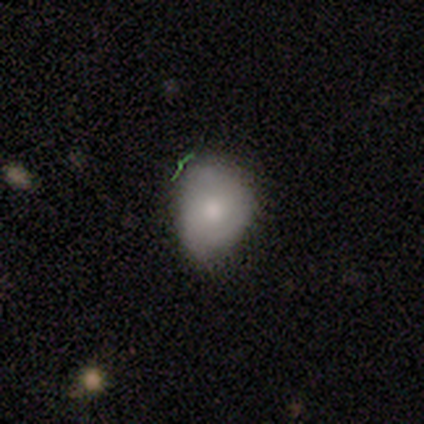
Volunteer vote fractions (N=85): Volunteers were most divided on "merging": none: 49%, minor disturbance: 43%, major disturbance: 5%, merger: 3%. More confident: how rounded — in between (62%); smooth or featured — smooth (55%).